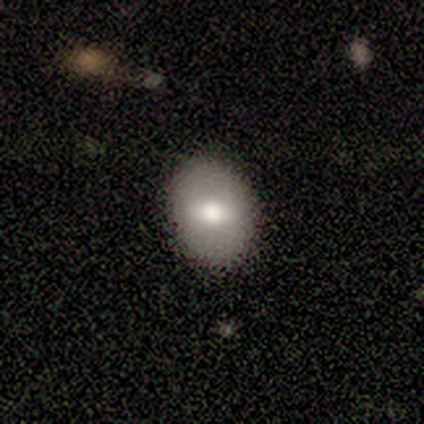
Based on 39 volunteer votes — Smooth or featured? 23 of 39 (59%) said smooth. How rounded? 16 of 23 (70%) said in between. Merging? 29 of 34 (85%) said none.